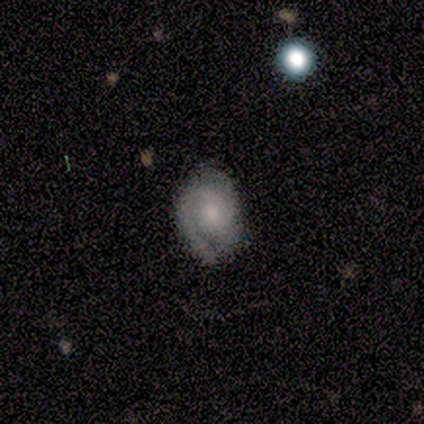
Morphology: type=featured or disk (60%); edge-on=no (100%); bar=no (67%); spiral arms=yes (83%); winding=medium (50%); arm count=2 (65%); bulge=moderate (46%); merging=none (79%).